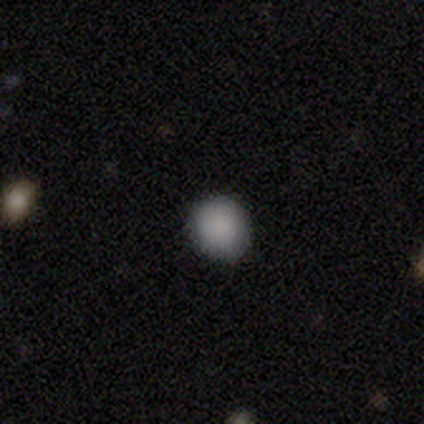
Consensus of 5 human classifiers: A smooth galaxy with no disk features (100%) that is round (80%).

Vote fractions:
- Smooth or featured? smooth: 100% / featured or disk: 0% / star or artifact: 0%
- How rounded? round: 80% / in between: 20% / cigar-shaped: 0%
- Merging? none: 100% / minor disturbance: 0% / major disturbance: 0% / merger: 0%